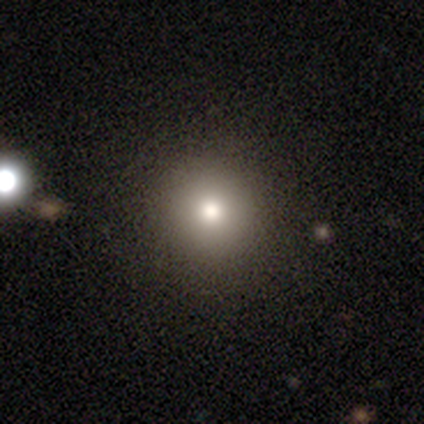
A smooth galaxy with no disk features (50%, tied with featured or disk) that is round (100%). Merging: none (100%).